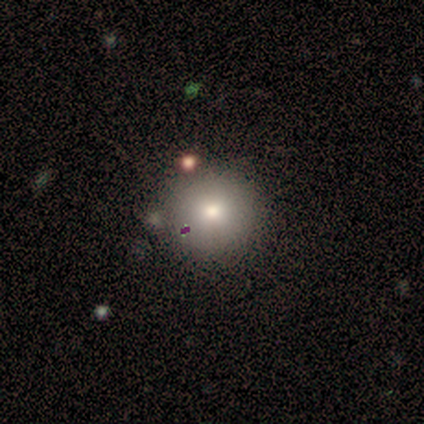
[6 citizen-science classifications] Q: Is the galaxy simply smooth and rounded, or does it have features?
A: smooth — 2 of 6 (33%, tied with featured or disk and star or artifact).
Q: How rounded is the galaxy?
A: round — 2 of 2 (100%).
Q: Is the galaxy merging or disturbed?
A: none — 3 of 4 (75%).